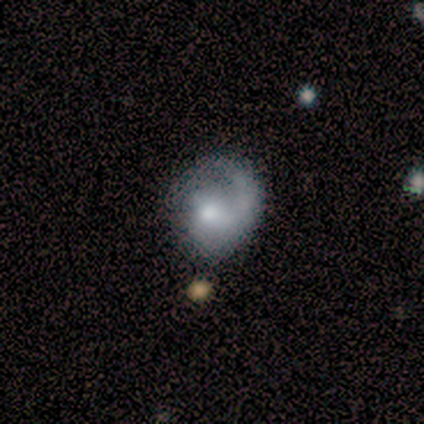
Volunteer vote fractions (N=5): This appears to be a featured or disk galaxy (60%) with no bar (67%), 1 (100%) medium (100%) spiral arms (100%) and a small central bulge (67%). Merging: none (75%).